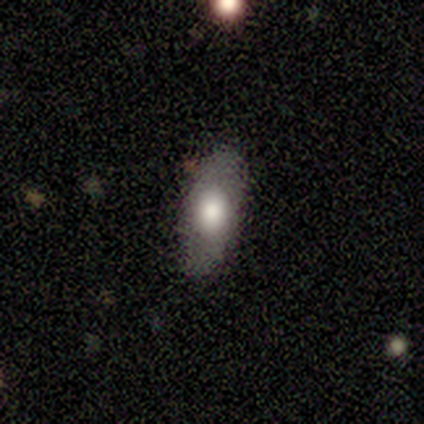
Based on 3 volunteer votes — Overall: smooth (100%). How rounded: in between (67%; cigar-shaped 33%). Merging: none (100%).